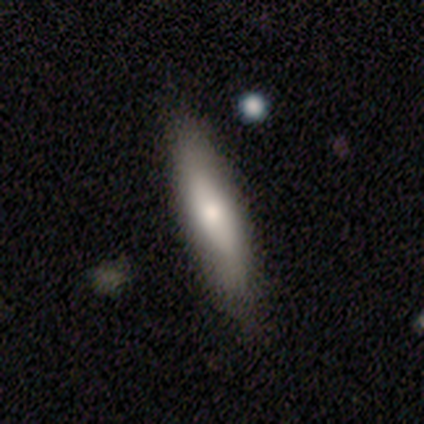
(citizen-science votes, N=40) A smooth galaxy with no disk features (60%) that is in between round and cigar-shaped (50%, tied with cigar-shaped). Merging: none (76%).